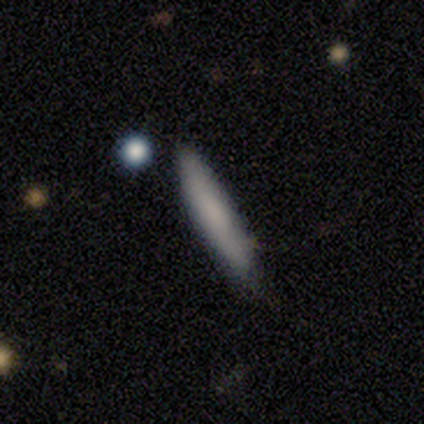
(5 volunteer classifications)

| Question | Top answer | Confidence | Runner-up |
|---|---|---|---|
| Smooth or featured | smooth | 100% | — |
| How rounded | cigar-shaped | 100% | — |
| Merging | none | 80% | minor disturbance (20%) |